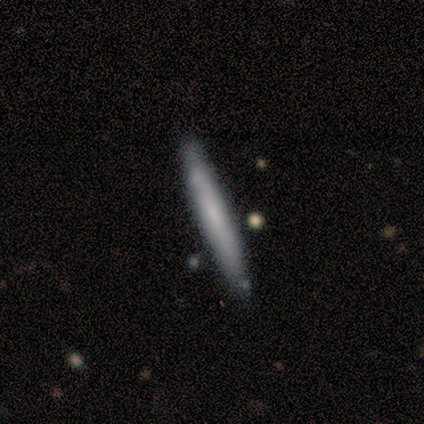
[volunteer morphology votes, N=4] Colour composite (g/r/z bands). It shows a featured or disk galaxy (75%) viewed edge-on (100%) with no central bulge (100%). Merging: none (75%).